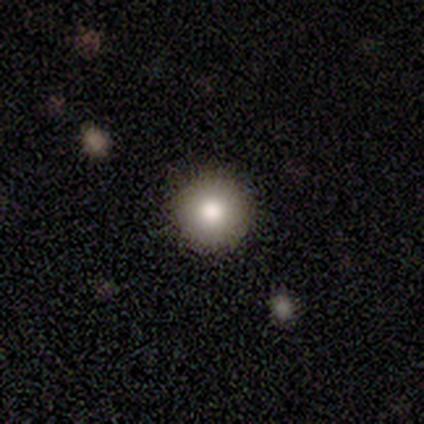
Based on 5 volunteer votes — Smooth or featured: smooth — 80% (featured or disk — 20%)
How rounded: round — 100%
Merging: none — 100%